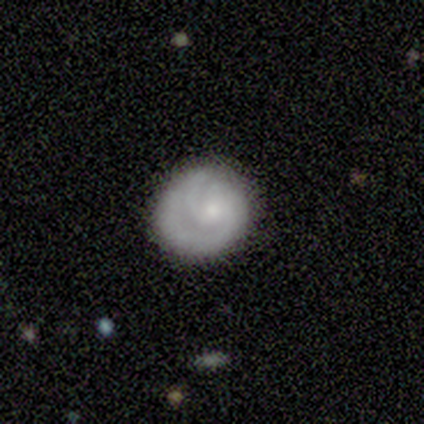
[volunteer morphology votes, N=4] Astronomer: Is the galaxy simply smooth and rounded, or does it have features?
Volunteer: featured or disk — 75%.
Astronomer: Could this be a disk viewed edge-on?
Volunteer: no — 100%.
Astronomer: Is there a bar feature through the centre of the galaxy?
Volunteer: no — 100%.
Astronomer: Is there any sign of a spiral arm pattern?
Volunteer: yes — 100%.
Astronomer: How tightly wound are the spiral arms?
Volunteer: tight — 67%.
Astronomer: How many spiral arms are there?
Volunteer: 2 — 67%.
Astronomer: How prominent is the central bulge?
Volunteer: small — 100%.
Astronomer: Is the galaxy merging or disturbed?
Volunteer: none — 50%, tied with minor disturbance at 50%.